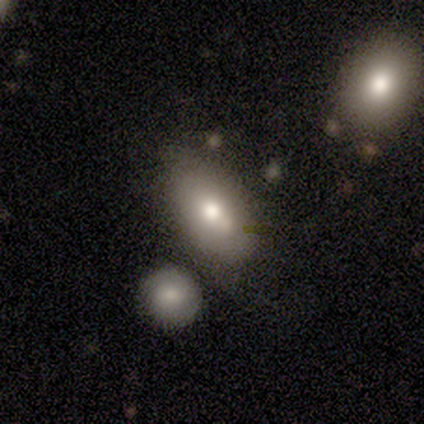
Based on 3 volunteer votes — A smooth galaxy with no disk features (67%) that is in between round and cigar-shaped (100%).

Vote fractions:
- Smooth or featured? smooth: 67% / featured or disk: 33% / star or artifact: 0%
- How rounded? in between: 100% / round: 0% / cigar-shaped: 0%
- Merging? none: 67% / major disturbance: 33% / minor disturbance: 0% / merger: 0%